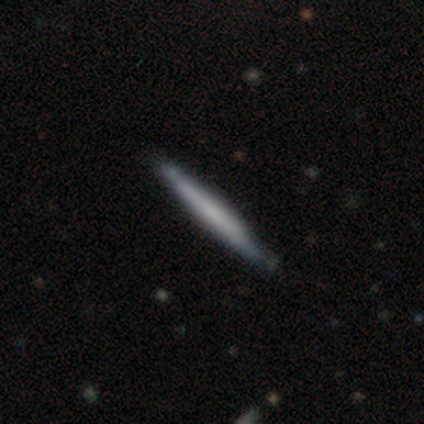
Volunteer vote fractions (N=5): smooth_or_featured: smooth (p=0.60) [alt: featured or disk p=0.20]
how_rounded: cigar-shaped (p=1.00)
merging: none (p=1.00)